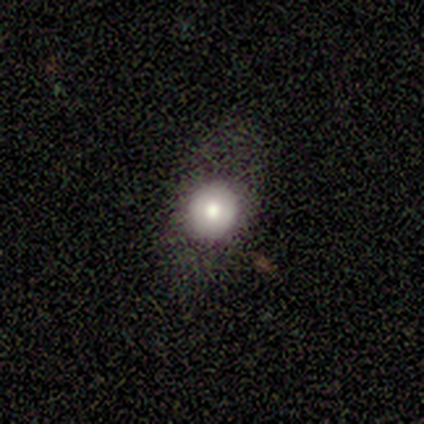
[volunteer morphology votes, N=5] Smooth or featured: smooth — 60% (featured or disk — 40%)
How rounded: round — 67% (in between — 33%)
Merging: none — 80% (major disturbance — 20%)